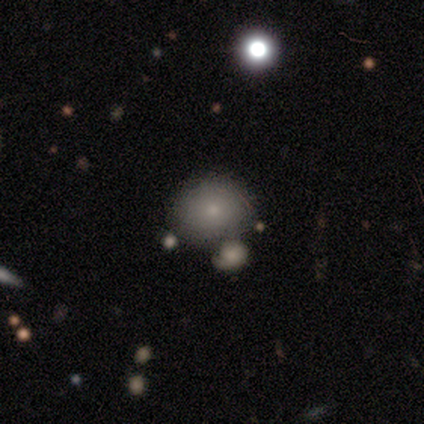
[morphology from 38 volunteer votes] A smooth galaxy with no disk features (89%) that is round (74%).

Vote fractions:
- Smooth or featured? smooth: 89% / featured or disk: 5% / star or artifact: 5%
- How rounded? round: 74% / in between: 26% / cigar-shaped: 0%
- Merging? none: 53% / merger: 31% / minor disturbance: 6% / major disturbance: 3%